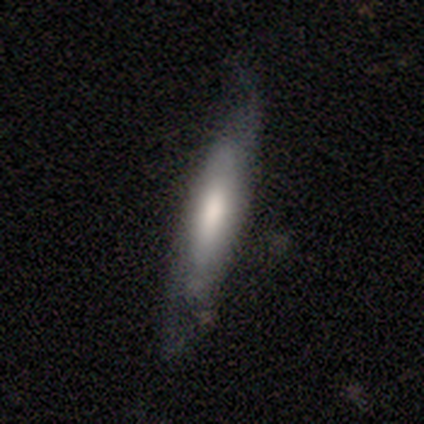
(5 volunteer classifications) Smooth or featured? 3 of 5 (60%) said smooth. How rounded? 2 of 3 (67%) said cigar-shaped. Merging? 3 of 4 (75%) said none.